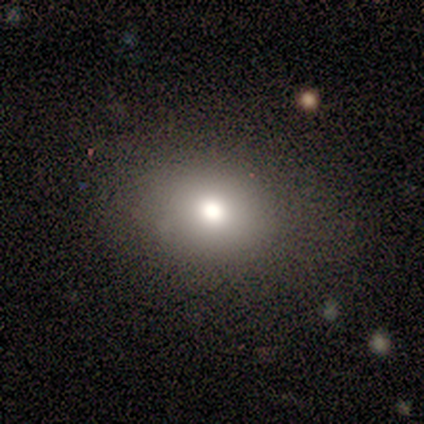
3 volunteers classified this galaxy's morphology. smooth 100%, featured or disk 0%, star or artifact 0%. Down the decision tree: how rounded — in between (100%); merging — none (67%).